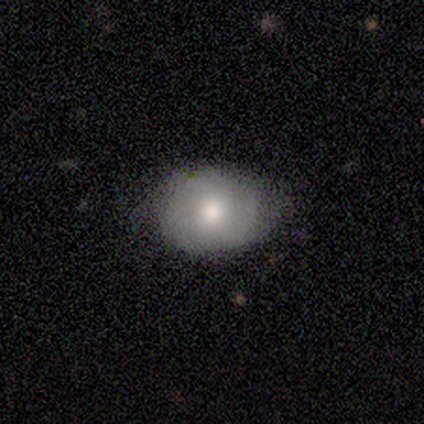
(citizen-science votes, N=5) Q: Smooth or featured?
A: smooth (60%); runner-up: featured or disk (20%)
Q: How rounded?
A: in between (100%)
Q: Merging?
A: none (75%); runner-up: minor disturbance (25%)